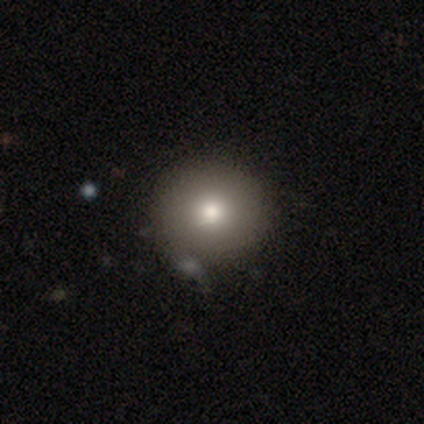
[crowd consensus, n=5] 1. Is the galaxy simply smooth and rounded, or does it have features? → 40% smooth (tied), 40% featured or disk (tied), 20% star or artifact.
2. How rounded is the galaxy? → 100% round, 0% in between, 0% cigar-shaped.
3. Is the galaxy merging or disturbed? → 75% none, 25% minor disturbance, 0% major disturbance, 0% merger.